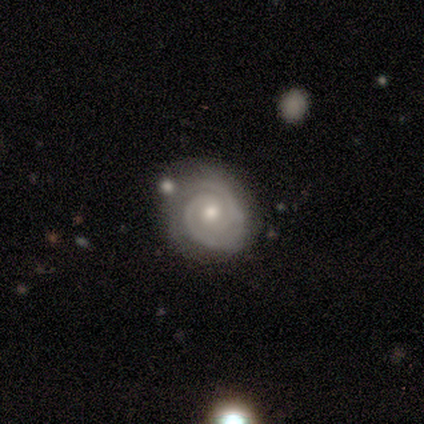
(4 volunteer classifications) This is clearly a featured or disk galaxy (100%). It is clearly not viewed edge-on (100%). Bar: clearly no (100%). Spiral arm pattern: clearly yes (100%). Spiral arm count: likely 2 (75%). Spiral winding: likely tight (75%). Central bulge: possibly moderate (50%, tied with small). Merging: likely none (75%).